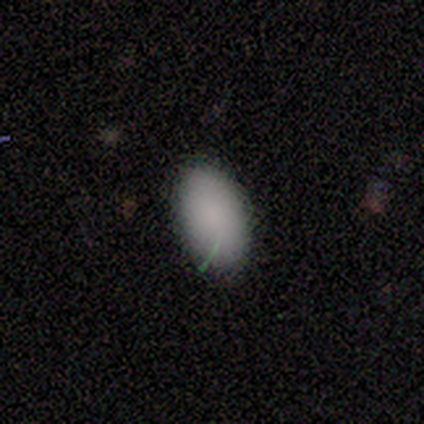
Q: Smooth or featured?
A: smooth (80%); runner-up: star or artifact (20%)
Q: How rounded?
A: in between (100%)
Q: Merging?
A: none (75%); runner-up: minor disturbance (25%)